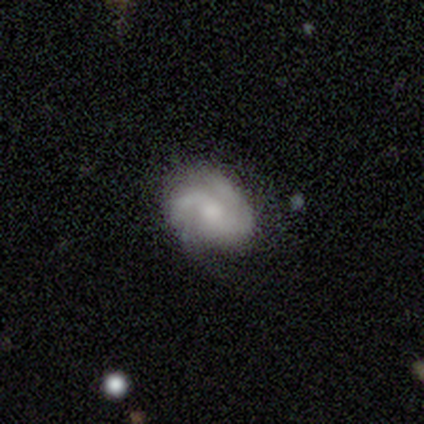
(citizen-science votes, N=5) This is likely a featured or disk galaxy (60%). It is clearly not viewed edge-on (100%). Bar: likely no (67%). Spiral arm pattern: clearly yes (100%). Spiral arm count: likely 2 (67%). Spiral winding: clearly tight (100%). Central bulge: likely small (67%). Merging: clearly none (80%).